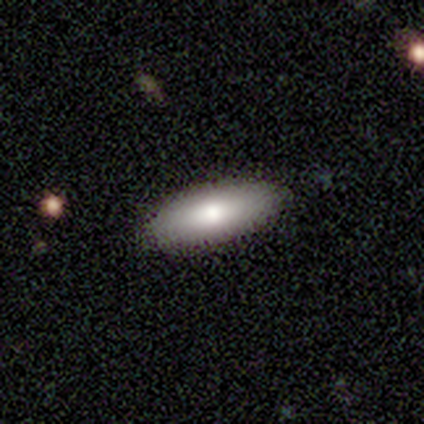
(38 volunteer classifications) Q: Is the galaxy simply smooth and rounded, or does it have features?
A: smooth — 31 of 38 (82%).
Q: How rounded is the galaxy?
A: in between — 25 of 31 (81%).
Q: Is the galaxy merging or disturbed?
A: none — 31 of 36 (86%).